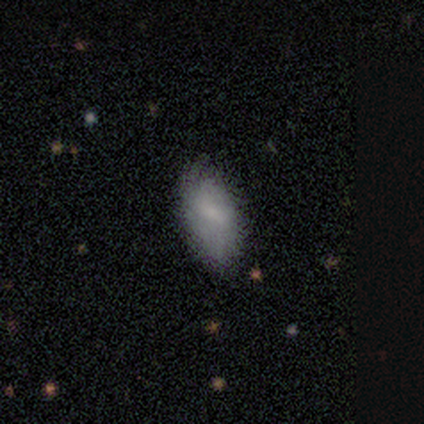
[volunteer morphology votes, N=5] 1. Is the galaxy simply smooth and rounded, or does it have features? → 80% smooth, 20% featured or disk, 0% star or artifact.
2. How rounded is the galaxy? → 100% in between, 0% round, 0% cigar-shaped.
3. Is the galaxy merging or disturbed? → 60% none, 40% minor disturbance, 0% major disturbance, 0% merger.